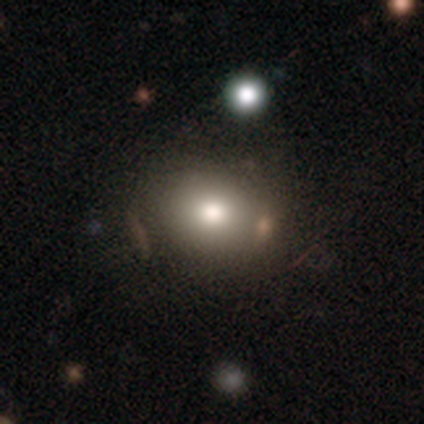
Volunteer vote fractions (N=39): This is likely a smooth galaxy (77%). How rounded: likely round (63%). Merging: likely none (64%).